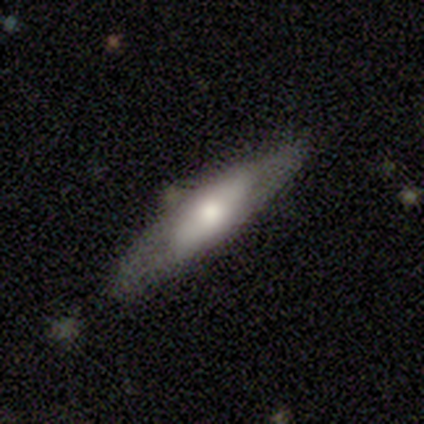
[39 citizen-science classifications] A featured or disk galaxy (62%) viewed edge-on (67%) with a rounded central bulge (69%).

Vote fractions:
- Smooth or featured? featured or disk: 62% / smooth: 38% / star or artifact: 0%
- Edge-on disk? yes: 67% / no: 33%
- Edge-on bulge? rounded: 69% / none: 19% / boxy: 12%
- Merging? none: 69% / minor disturbance: 15% / major disturbance: 10% / merger: 5%